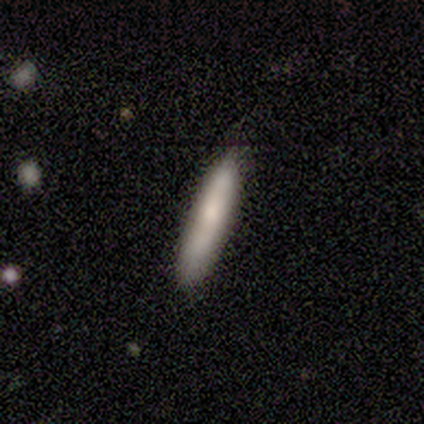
This appears to be a smooth galaxy with no disk features (75%) that is cigar-shaped (67%). Merging: none (50%).